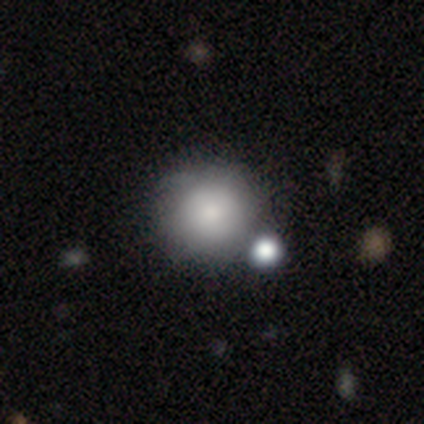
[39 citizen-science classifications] This is likely a smooth galaxy (79%). How rounded: clearly round (97%). Merging: likely none (74%).